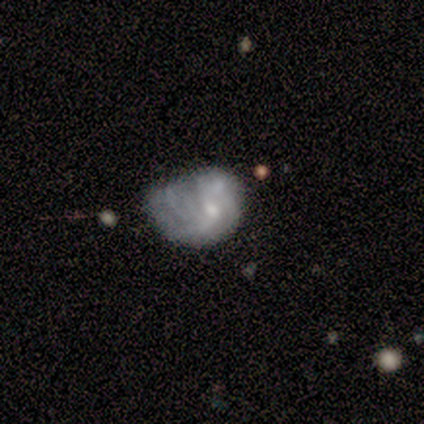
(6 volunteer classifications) This appears to be a featured or disk galaxy (67%) with no bar (100%), medium (67%) spiral arms (75%) and a moderate central bulge (50%, tied with small). Merging: none (33%, tied with minor disturbance and major disturbance).